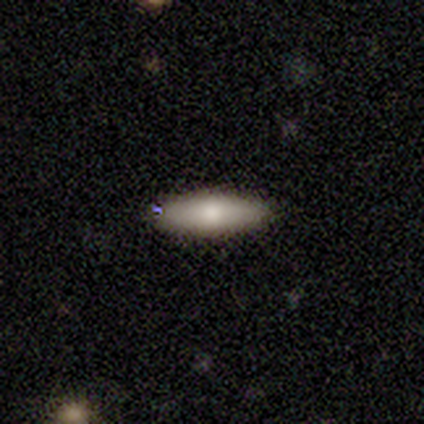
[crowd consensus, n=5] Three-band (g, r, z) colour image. It shows a smooth galaxy with no disk features (60%) that is cigar-shaped (67%). Merging: none (100%).